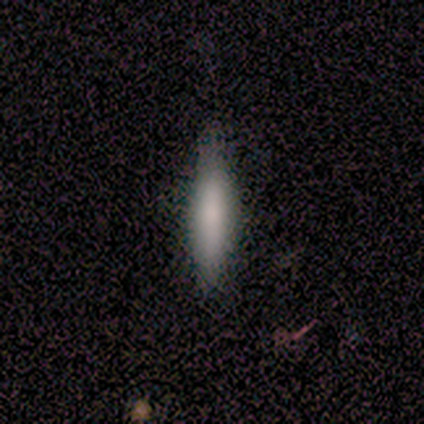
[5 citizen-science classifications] Overall: smooth (80%). How rounded: cigar-shaped (75%). Merging: none (80%).